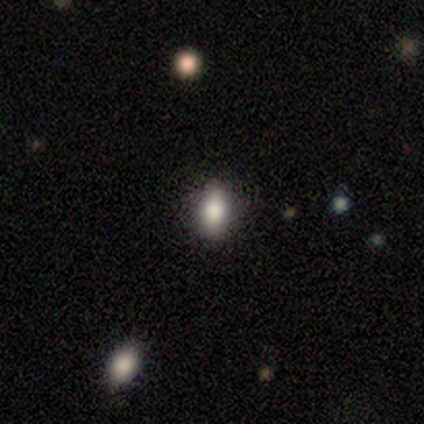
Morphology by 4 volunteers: Volunteers were most divided on "smooth or featured" (2-way tie): smooth: 50%, featured or disk: 50%, star or artifact: 0%; "how rounded" (2-way tie): round: 50%, in between: 50%, cigar-shaped: 0%. More confident: merging — none (100%).